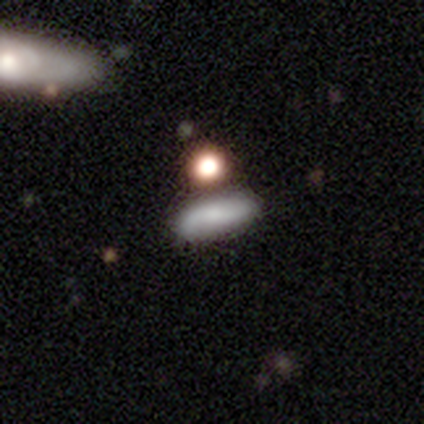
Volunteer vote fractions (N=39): Overall: smooth (41%; featured or disk 33%). How rounded: cigar-shaped (62%; in between 38%). Merging: none (83%).